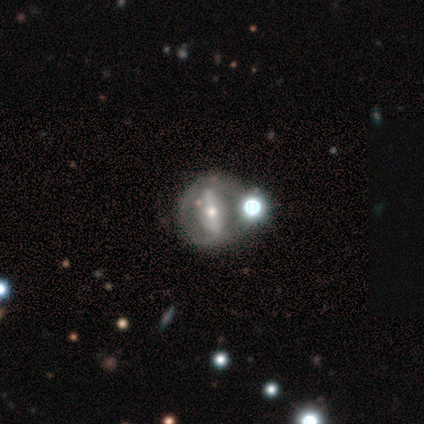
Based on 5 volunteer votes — Q: Smooth or featured?
A: featured or disk (40%); tied with: star or artifact (40%)
Q: Edge-on disk?
A: no (100%)
Q: Bar?
A: strong (100%)
Q: Spiral arms?
A: no (100%)
Q: Bulge size?
A: moderate (100%)
Q: Merging?
A: minor disturbance (67%); runner-up: major disturbance (33%)